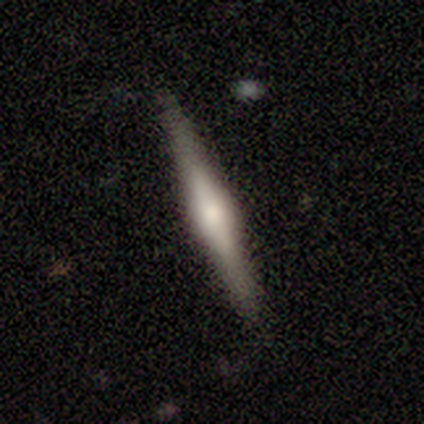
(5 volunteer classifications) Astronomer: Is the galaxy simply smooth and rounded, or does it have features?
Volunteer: featured or disk — 60%.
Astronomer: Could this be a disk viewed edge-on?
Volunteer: yes — 100%.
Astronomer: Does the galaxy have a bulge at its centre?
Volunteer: rounded — 67%.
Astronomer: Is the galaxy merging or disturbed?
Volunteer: none — 100%.